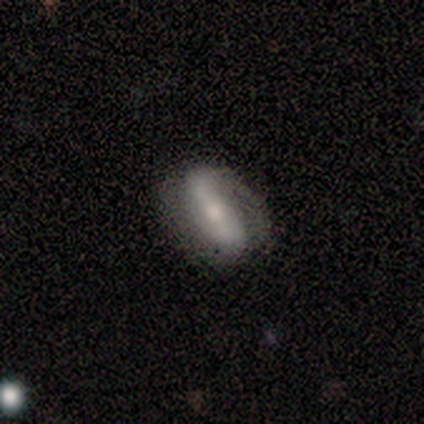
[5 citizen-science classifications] A featured or disk galaxy (60%) with a strong bar (100%), 2 (100%) loose (67%) spiral arms (100%) and a moderate central bulge (100%).

Vote fractions:
- Smooth or featured? featured or disk: 60% / smooth: 40% / star or artifact: 0%
- Edge-on disk? no: 100% / yes: 0%
- Bar? strong: 100% / weak: 0% / no: 0%
- Spiral arms? yes: 100% / no: 0%
- Spiral winding? loose: 67% / medium: 33% / tight: 0%
- Spiral arm count? 2: 100% / 1: 0% / 3: 0% / 4: 0% / more than 4: 0% / can't tell: 0%
- Bulge size? moderate: 100% / dominant: 0% / large: 0% / small: 0% / none: 0%
- Merging? minor disturbance: 60% / none: 40% / major disturbance: 0% / merger: 0%